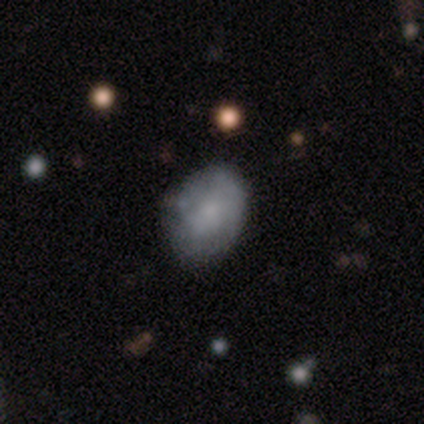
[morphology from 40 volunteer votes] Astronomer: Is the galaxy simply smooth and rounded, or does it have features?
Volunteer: featured or disk — 52% (runner-up: smooth, 42%).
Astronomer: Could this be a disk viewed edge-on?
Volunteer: no — 95%.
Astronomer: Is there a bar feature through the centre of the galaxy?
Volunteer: no — 90%.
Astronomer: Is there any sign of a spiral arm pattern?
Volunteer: no — 70%.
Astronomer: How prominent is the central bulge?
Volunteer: none — 45% (runner-up: small, 35%).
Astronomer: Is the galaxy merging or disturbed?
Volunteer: none — 61%.